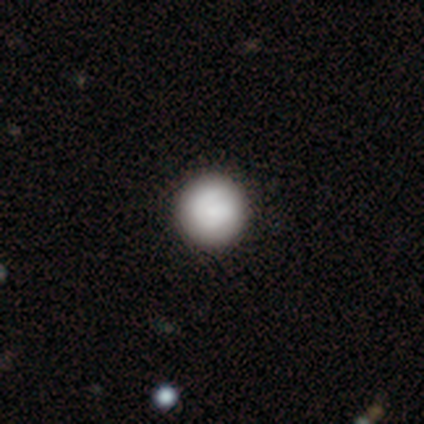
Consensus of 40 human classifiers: Morphology: type=smooth (82%); roundness=round (100%); merging=none (62%).